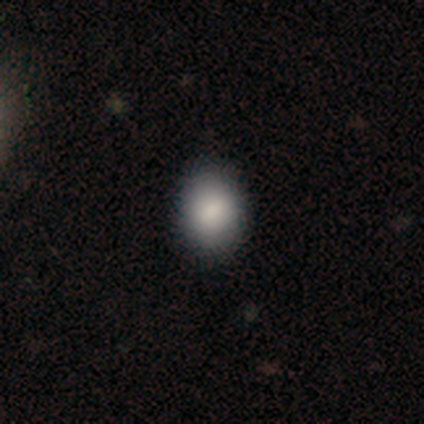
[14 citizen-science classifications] Smooth or featured?
  - smooth: 100% *
  - featured or disk: 0%
  - star or artifact: 0%
How rounded?
  - in between: 57% *
  - round: 43%
  - cigar-shaped: 0%
Merging?
  - none: 79% *
  - minor disturbance: 21%
  - major disturbance: 0%
  - merger: 0%